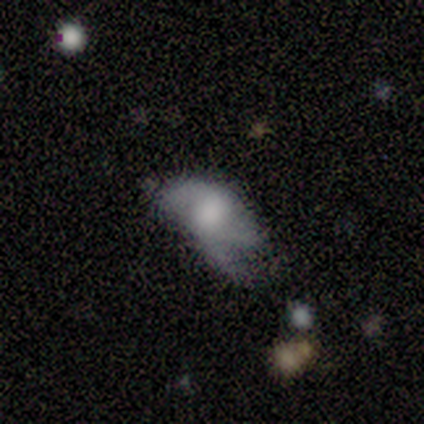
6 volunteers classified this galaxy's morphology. Q: Smooth or featured?
A: smooth (50%); tied with: featured or disk (50%)
Q: How rounded?
A: in between (100%)
Q: Merging?
A: none (50%); tied with: major disturbance (50%)